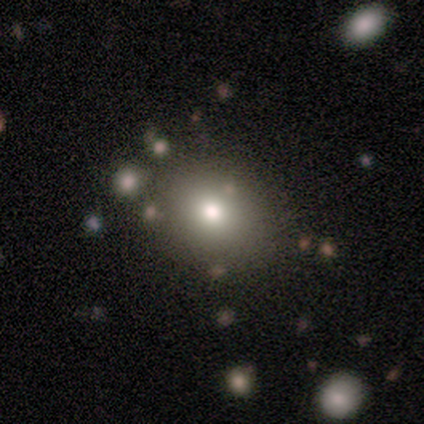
Volunteers were most divided on "smooth or featured": smooth: 63%, star or artifact: 21%, featured or disk: 16%. More confident: merging — none (83%); how rounded — round (79%).